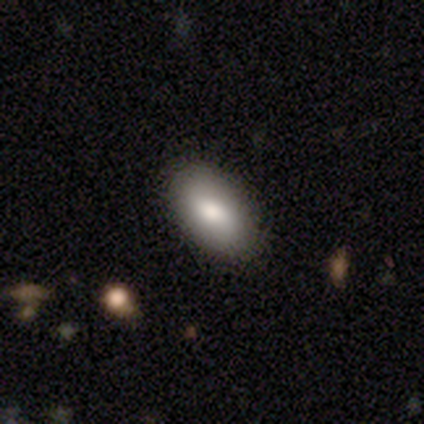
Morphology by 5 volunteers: Smooth or featured? smooth (100%)
How rounded? in between (100%)
Merging? none (100%)